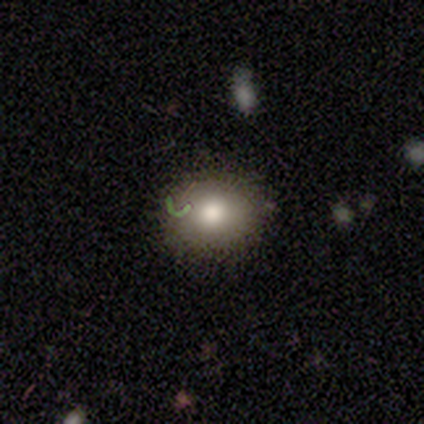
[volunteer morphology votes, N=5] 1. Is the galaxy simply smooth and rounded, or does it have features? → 60% smooth, 40% star or artifact, 0% featured or disk.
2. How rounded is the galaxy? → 100% round, 0% in between, 0% cigar-shaped.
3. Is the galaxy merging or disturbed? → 100% none, 0% minor disturbance, 0% major disturbance, 0% merger.